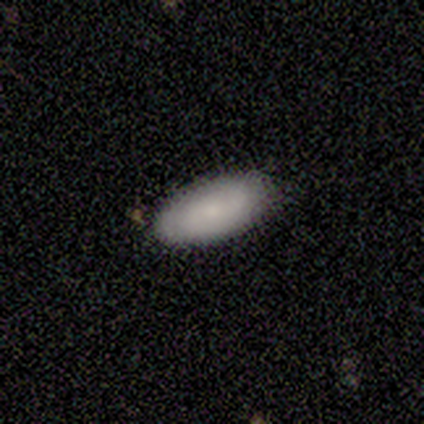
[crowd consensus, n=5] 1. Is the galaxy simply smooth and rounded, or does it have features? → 100% smooth, 0% featured or disk, 0% star or artifact.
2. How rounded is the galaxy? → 100% in between, 0% round, 0% cigar-shaped.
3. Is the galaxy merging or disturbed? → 100% none, 0% minor disturbance, 0% major disturbance, 0% merger.